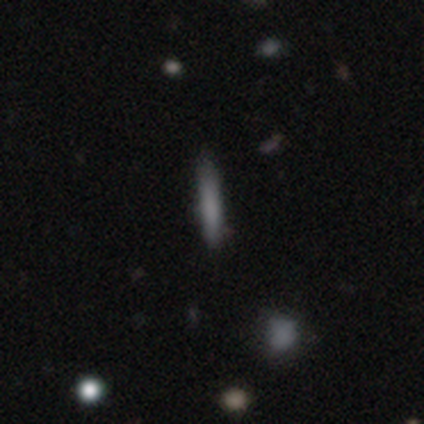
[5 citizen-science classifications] smooth_or_featured: featured or disk (p=0.60) [alt: smooth p=0.20]
disk_edge_on: yes (p=1.00)
edge_on_bulge: none (p=0.67) [alt: boxy p=0.33]
merging: none (p=1.00)